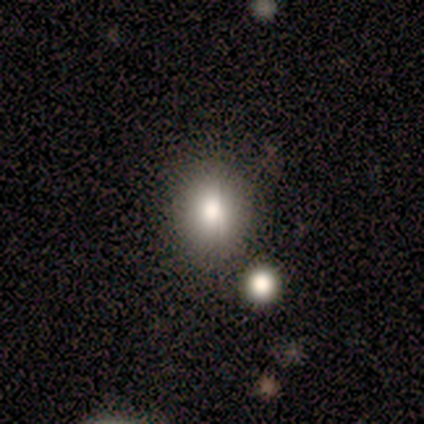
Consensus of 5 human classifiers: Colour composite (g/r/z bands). It shows a smooth galaxy with no disk features (60%) that is round (67%). Merging: none (50%).